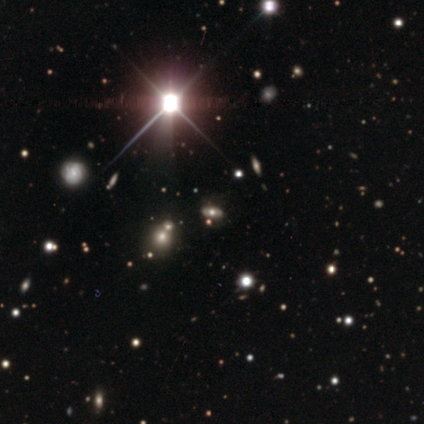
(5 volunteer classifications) This is clearly a star or artifact rather than a galaxy (100%).